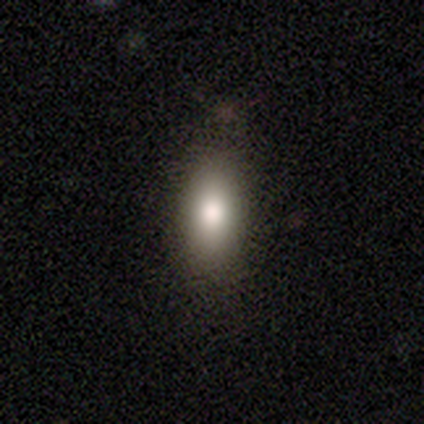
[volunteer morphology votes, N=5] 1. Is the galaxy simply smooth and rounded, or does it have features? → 80% smooth, 20% star or artifact, 0% featured or disk.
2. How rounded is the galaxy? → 75% in between, 25% round, 0% cigar-shaped.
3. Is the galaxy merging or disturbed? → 100% none, 0% minor disturbance, 0% major disturbance, 0% merger.